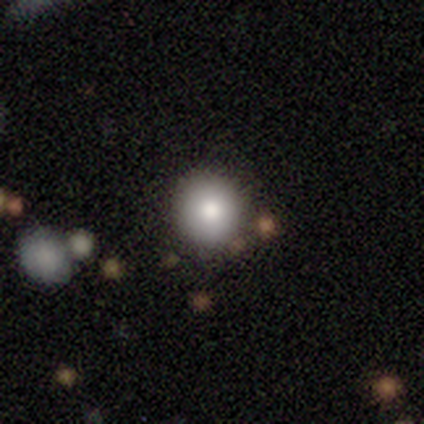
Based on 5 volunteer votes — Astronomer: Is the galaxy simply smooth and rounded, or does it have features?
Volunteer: smooth — 100%.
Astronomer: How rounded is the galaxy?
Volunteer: round — 80%.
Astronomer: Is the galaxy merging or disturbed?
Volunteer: none — 80%.